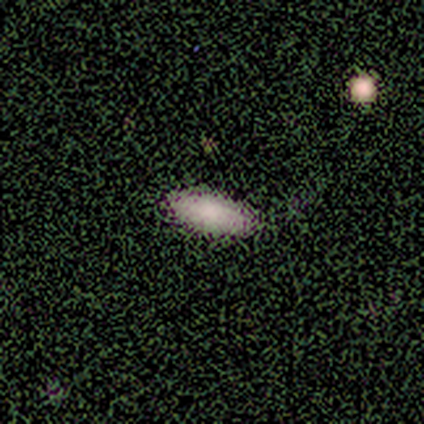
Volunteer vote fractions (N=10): A smooth galaxy with no disk features (80%) that is in between round and cigar-shaped (75%).

Vote fractions:
- Smooth or featured? smooth: 80% / featured or disk: 10% / star or artifact: 10%
- How rounded? in between: 75% / cigar-shaped: 25% / round: 0%
- Merging? none: 100% / minor disturbance: 0% / major disturbance: 0% / merger: 0%